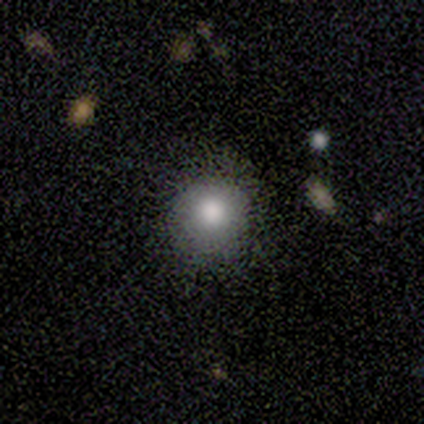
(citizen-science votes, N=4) Q: Smooth or featured?
A: smooth (75%); runner-up: star or artifact (25%)
Q: How rounded?
A: round (100%)
Q: Merging?
A: none (100%)